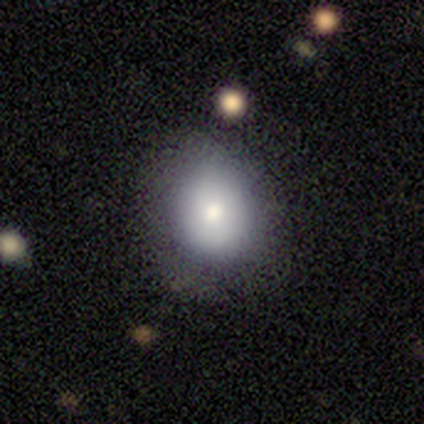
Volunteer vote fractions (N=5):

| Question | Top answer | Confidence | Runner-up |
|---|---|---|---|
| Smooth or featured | smooth | 60% | featured or disk (40%) |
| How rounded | round | 100% | — |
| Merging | none | 100% | — |